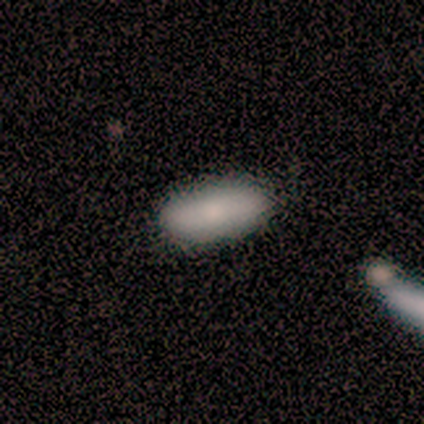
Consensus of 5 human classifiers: smooth_or_featured: smooth (p=0.80) [alt: star or artifact p=0.20]
how_rounded: in between (p=1.00)
merging: none (p=0.75) [alt: minor disturbance p=0.25]